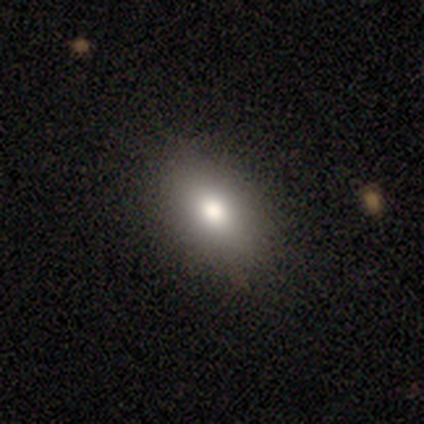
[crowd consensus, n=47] smooth-or-featured: smooth: 81% | featured or disk: 11% | star or artifact: 9%
  how-rounded: in between: 84% | round: 16% | cigar-shaped: 0%
  merging: none: 88% | minor disturbance: 7% | major disturbance: 5% | merger: 0%